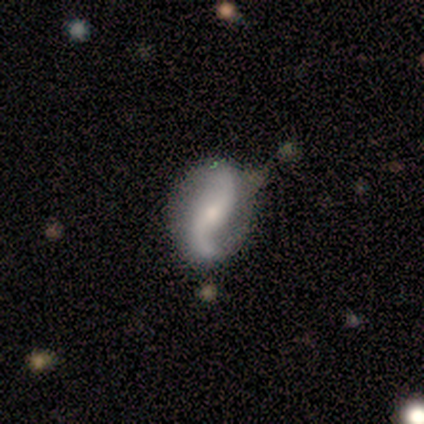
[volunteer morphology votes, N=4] type=featured or disk (75%); edge-on=no (100%); bar=no (67%); spiral arms=yes (100%); winding=loose (100%); arm count=2 (100%); bulge=small (100%); merging=minor disturbance (75%).